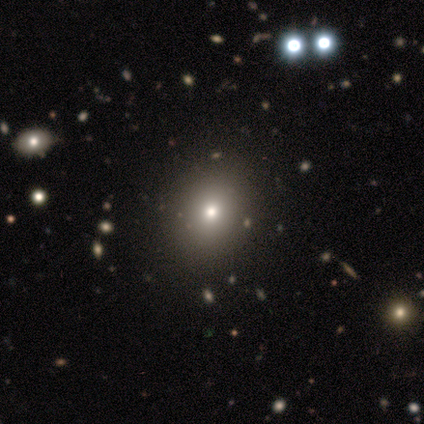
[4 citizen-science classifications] smooth-or-featured: smooth: 75% | star or artifact: 25% | featured or disk: 0%
  how-rounded: round: 100% | in between: 0% | cigar-shaped: 0%
  merging: none: 100% | minor disturbance: 0% | major disturbance: 0% | merger: 0%